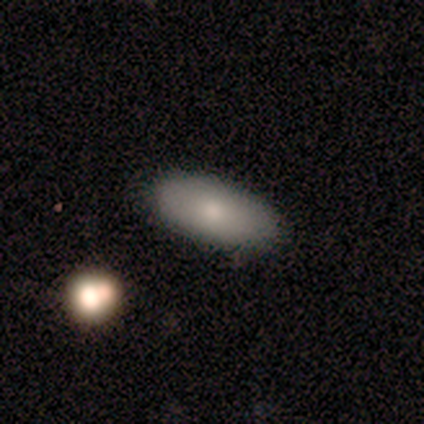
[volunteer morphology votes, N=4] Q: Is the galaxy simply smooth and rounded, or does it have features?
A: smooth — 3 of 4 (75%).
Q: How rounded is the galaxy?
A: in between — 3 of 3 (100%).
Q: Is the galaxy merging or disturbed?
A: none — 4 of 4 (100%).